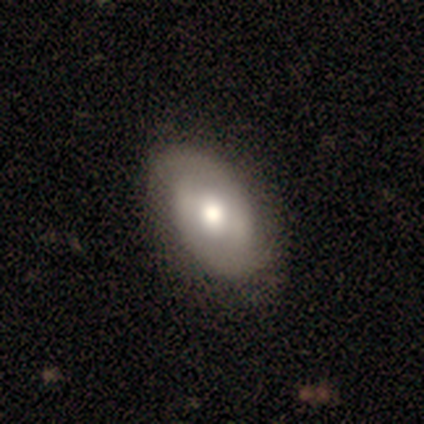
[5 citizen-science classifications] featured or disk 80%, smooth 20%, star or artifact 0%. Down the decision tree: edge-on disk — no (75%); bar — strong (33%, tied with weak and no); spiral arms — yes (100%); spiral arm count — 2 (100%); spiral winding — tight (67%); bulge size — moderate (100%); merging — none (80%).